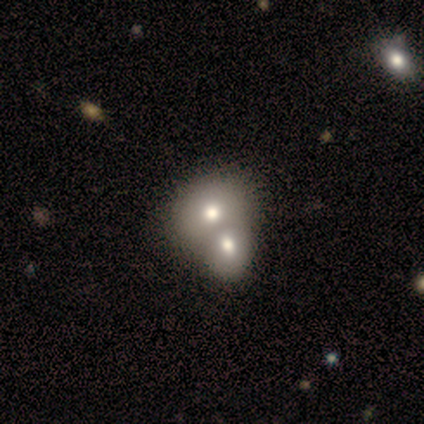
Overall: smooth (50%; star or artifact 30%). How rounded: round (100%). Merging: merger (57%; none 43%).